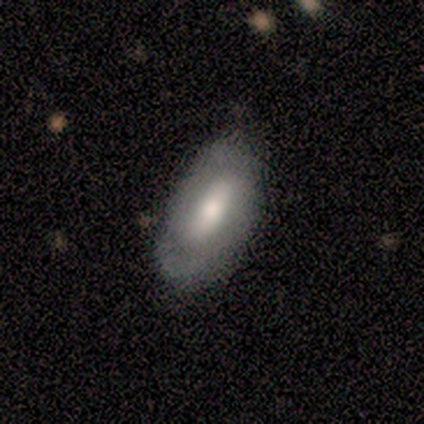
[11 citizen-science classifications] This appears to be a featured or disk galaxy (64%) with no bar (50%), 2 (80%) tight (40%, tied with loose) spiral arms (83%) and a moderate central bulge (83%). Merging: none (60%).